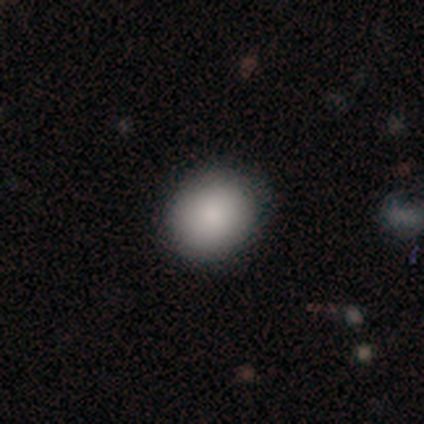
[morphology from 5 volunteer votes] A smooth galaxy with no disk features (100%) that is round (80%). Merging: none (80%).